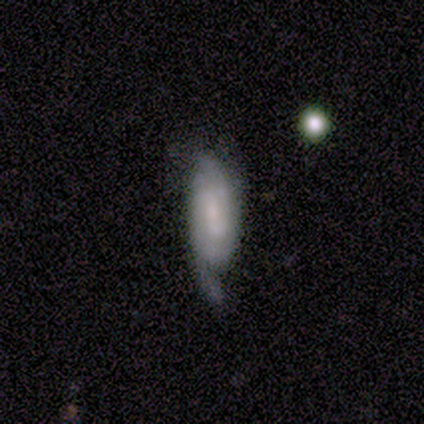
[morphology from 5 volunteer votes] featured or disk 60%, smooth 40%, star or artifact 0%. Down the decision tree: edge-on disk — no (67%); bar — strong (100%); spiral arms — yes (100%); spiral arm count — 2 (50%, tied with 3); spiral winding — medium (50%, tied with loose); bulge size — small (100%); merging — major disturbance (60%).